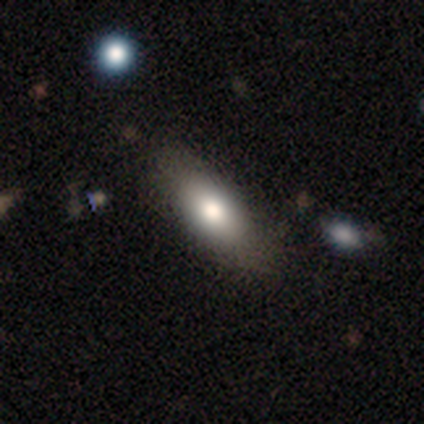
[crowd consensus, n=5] A smooth galaxy with no disk features (80%) that is in between round and cigar-shaped (75%).

Vote fractions:
- Smooth or featured? smooth: 80% / featured or disk: 20% / star or artifact: 0%
- How rounded? in between: 75% / cigar-shaped: 25% / round: 0%
- Merging? none: 100% / minor disturbance: 0% / major disturbance: 0% / merger: 0%